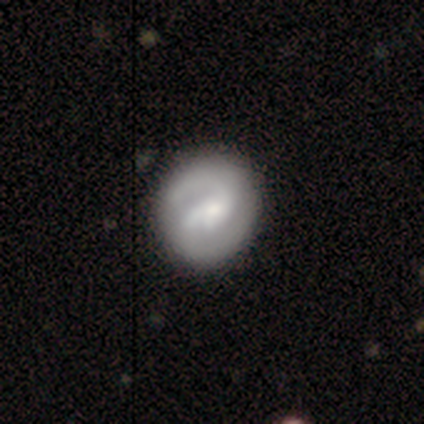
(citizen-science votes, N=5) Smooth or featured? 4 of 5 (80%) said featured or disk. Edge-on disk? 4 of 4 (100%) said no. Bar? 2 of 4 (50%, tied with no) said weak. Spiral arms? 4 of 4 (100%) said yes. Spiral winding? 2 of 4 (50%) said medium. Spiral arm count? 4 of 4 (100%) said 2. Bulge size? 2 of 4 (50%) said small. Merging? 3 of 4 (75%) said none.